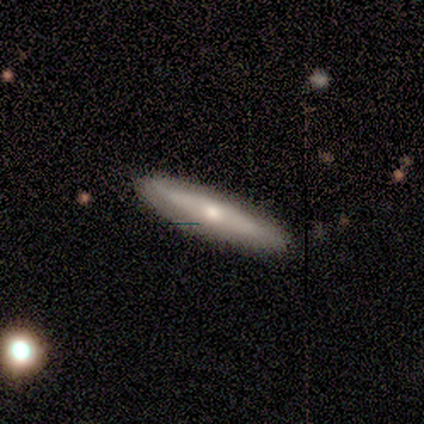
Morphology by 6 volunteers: smooth_or_featured: smooth (p=0.67) [alt: featured or disk p=0.17]
how_rounded: cigar-shaped (p=1.00)
merging: none (p=0.80) [alt: major disturbance p=0.20]